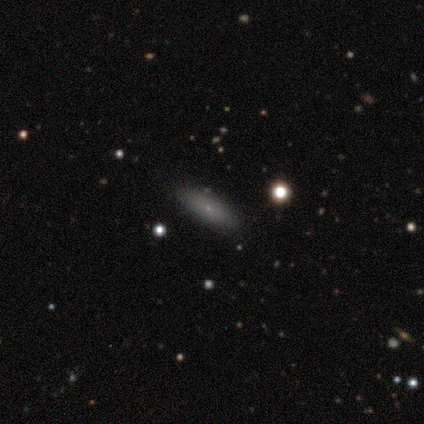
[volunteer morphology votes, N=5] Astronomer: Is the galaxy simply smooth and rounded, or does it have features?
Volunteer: smooth — 100%.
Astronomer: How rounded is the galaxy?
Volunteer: in between — 60%.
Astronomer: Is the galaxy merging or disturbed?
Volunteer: none — 100%.